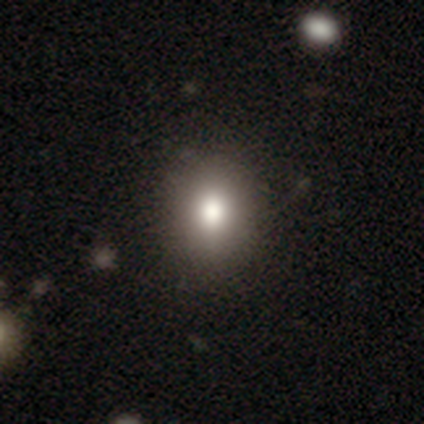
smooth 75%, featured or disk 12%, star or artifact 12%. Down the decision tree: how rounded — round (75%); merging — none (79%).